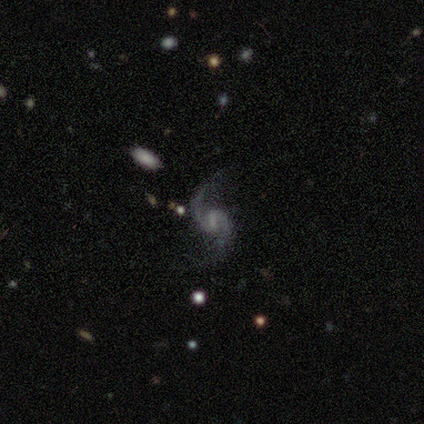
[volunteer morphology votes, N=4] Smooth or featured: featured or disk — 75% (smooth — 25%)
Edge-on disk: no — 100%
Bar: strong — 33% (tied with weak — 33%; no — 33%)
Spiral arms: yes — 100%
Spiral winding: loose — 67% (medium — 33%)
Spiral arm count: 2 — 100%
Bulge size: moderate — 67% (small — 33%)
Merging: none — 50% (minor disturbance — 25%)